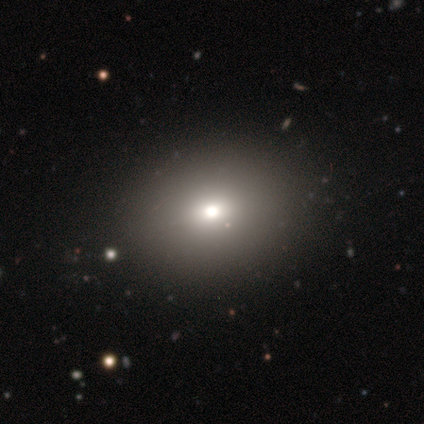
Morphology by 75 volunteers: Overall: smooth (69%). How rounded: in between (60%; round 40%). Merging: none (38%; minor disturbance 5%).